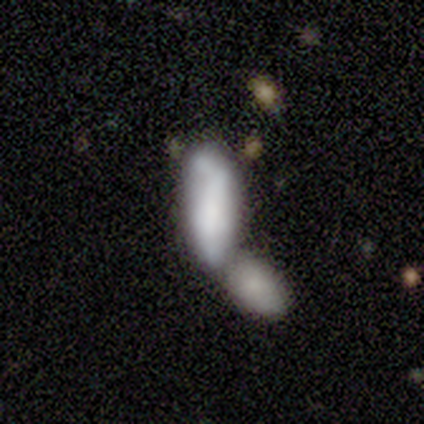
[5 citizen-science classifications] smooth 60%, featured or disk 40%, star or artifact 0%. Down the decision tree: how rounded — in between (100%); merging — merger (80%).